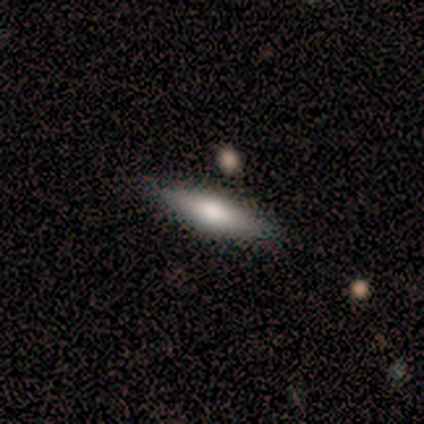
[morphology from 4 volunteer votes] Q: Smooth or featured?
A: smooth (50%); tied with: featured or disk (50%)
Q: How rounded?
A: cigar-shaped (100%)
Q: Merging?
A: none (100%)